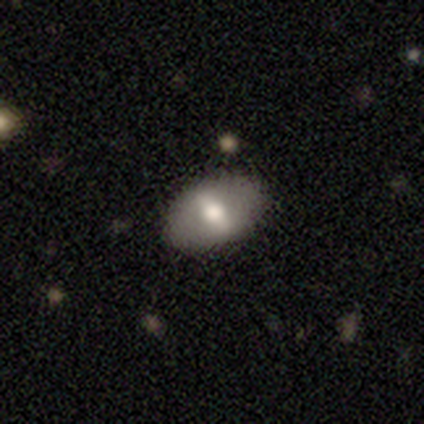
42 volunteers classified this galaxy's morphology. Smooth or featured: smooth — 57% (featured or disk — 38%)
How rounded: in between — 88% (round — 12%)
Merging: none — 88% (minor disturbance — 5%)